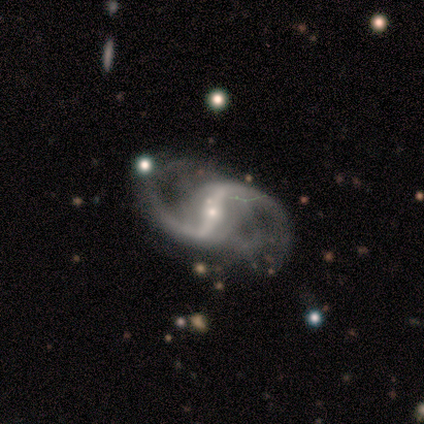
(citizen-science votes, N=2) Smooth or featured? 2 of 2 (100%) said featured or disk. Edge-on disk? 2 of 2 (100%) said no. Bar? 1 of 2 (50%, tied with weak) said strong. Spiral arms? 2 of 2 (100%) said yes. Spiral winding? 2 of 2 (100%) said loose. Spiral arm count? 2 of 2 (100%) said 2. Bulge size? 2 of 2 (100%) said small. Merging? 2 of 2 (100%) said none.